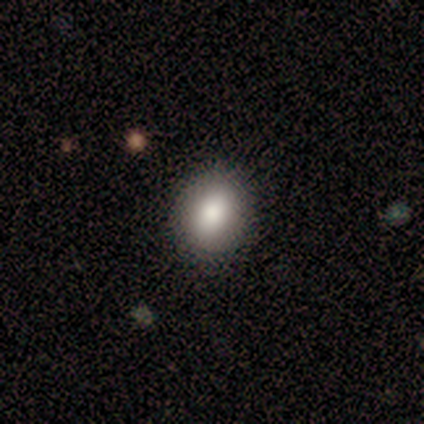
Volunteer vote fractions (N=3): Smooth or featured: smooth — 67% (featured or disk — 33%)
How rounded: round — 50% (tied with in between — 50%)
Merging: none — 67% (major disturbance — 33%)